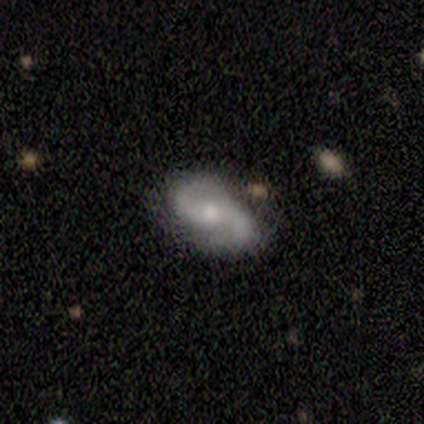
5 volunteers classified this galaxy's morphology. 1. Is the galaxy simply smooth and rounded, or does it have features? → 100% featured or disk, 0% smooth, 0% star or artifact.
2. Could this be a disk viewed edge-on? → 100% no, 0% yes.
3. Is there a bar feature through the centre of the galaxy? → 40% strong (tied), 40% no (tied), 20% weak.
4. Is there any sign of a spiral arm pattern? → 100% yes, 0% no.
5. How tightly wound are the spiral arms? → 40% medium (tied), 40% loose (tied), 20% tight.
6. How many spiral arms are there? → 80% 2, 20% 1, 0% 3, 0% 4, 0% more than 4, 0% can't tell.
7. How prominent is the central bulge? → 60% moderate, 20% large, 20% small, 0% dominant, 0% none.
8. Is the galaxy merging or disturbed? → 60% none, 40% minor disturbance, 0% major disturbance, 0% merger.